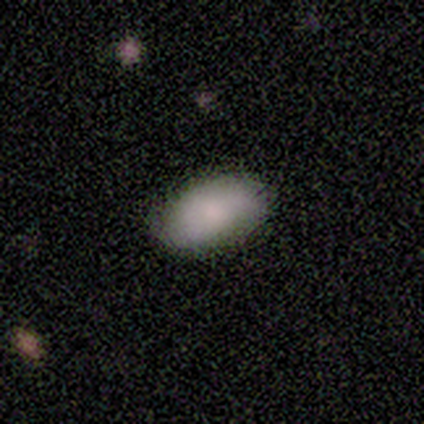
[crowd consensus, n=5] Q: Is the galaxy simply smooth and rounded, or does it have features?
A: smooth — 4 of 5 (80%).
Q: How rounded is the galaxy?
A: in between — 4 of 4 (100%).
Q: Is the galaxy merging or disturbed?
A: none — 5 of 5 (100%).